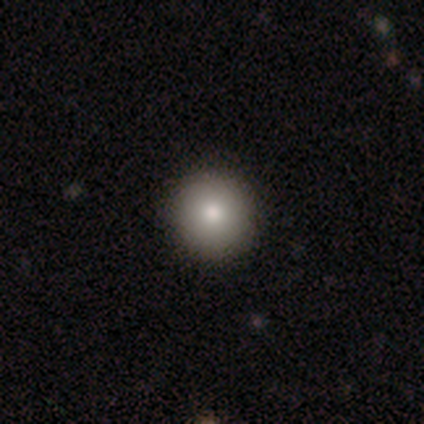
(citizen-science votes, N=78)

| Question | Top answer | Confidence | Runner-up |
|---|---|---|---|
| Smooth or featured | smooth | 86% | featured or disk (12%) |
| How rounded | round | 96% | in between (4%) |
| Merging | none | 50% | minor disturbance (1%) |